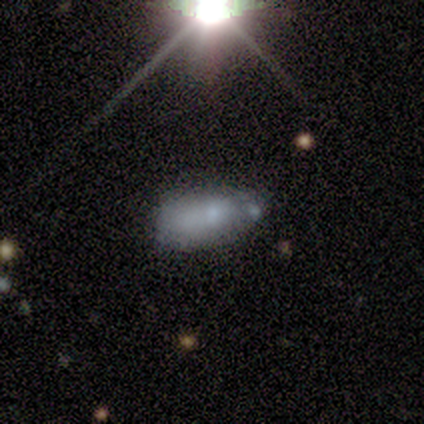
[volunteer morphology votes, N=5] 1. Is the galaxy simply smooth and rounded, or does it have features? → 60% featured or disk, 40% star or artifact, 0% smooth.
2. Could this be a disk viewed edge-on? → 67% no, 33% yes.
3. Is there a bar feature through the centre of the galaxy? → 100% no, 0% strong, 0% weak.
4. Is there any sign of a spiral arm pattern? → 100% no, 0% yes.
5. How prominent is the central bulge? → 50% moderate (tied), 50% none (tied), 0% dominant, 0% large, 0% small.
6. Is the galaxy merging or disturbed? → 33% none (tied), 33% minor disturbance (tied), 33% merger (tied), 0% major disturbance.